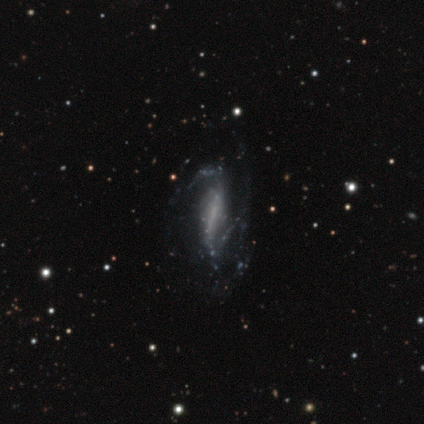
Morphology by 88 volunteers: A featured or disk galaxy (84%) with a strong bar (40%), 2 (61%) loose (48%) spiral arms (79%) and no central bulge (78%). Merging: none (54%).